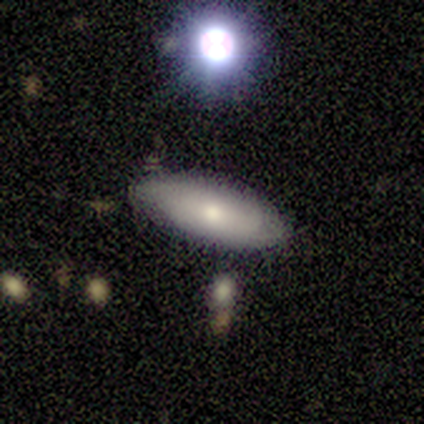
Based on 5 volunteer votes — This is likely a smooth galaxy (60%). How rounded: clearly in between (100%). Merging: likely none (75%).